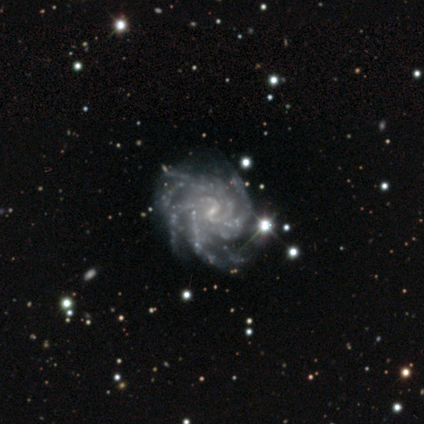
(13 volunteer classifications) Smooth or featured: featured or disk — 100%
Edge-on disk: no — 100%
Bar: weak — 54% (no — 38%)
Spiral arms: yes — 100%
Spiral winding: tight — 69% (medium — 31%)
Spiral arm count: more than 4 — 46% (4 — 31%)
Bulge size: small — 85% (none — 15%)
Merging: minor disturbance — 54% (none — 38%)